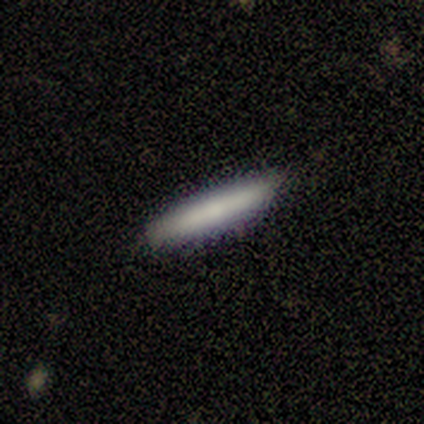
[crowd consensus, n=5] A smooth galaxy with no disk features (80%) that is cigar-shaped (100%). Merging: none (100%).